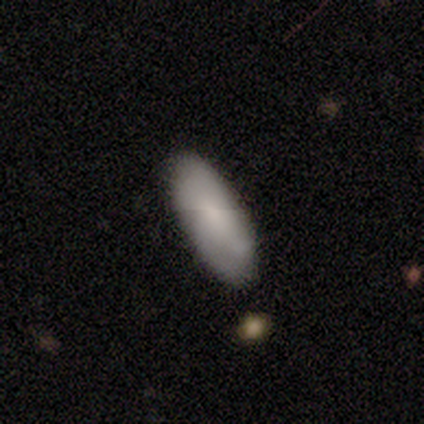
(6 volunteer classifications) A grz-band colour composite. It shows a smooth galaxy with no disk features (83%) that is in between round and cigar-shaped (100%). Merging: none (67%).